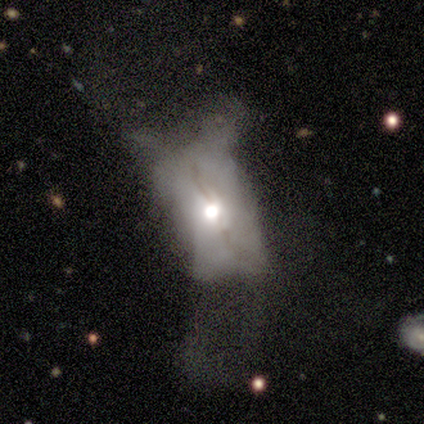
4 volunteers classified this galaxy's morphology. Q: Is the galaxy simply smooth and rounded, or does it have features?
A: featured or disk — 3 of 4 (75%).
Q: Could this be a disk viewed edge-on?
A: no — 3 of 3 (100%).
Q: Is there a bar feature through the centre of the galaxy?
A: no — 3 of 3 (100%).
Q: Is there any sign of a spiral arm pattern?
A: no — 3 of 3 (100%).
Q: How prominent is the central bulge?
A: large — 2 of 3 (67%).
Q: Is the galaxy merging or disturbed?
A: major disturbance — 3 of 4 (75%).